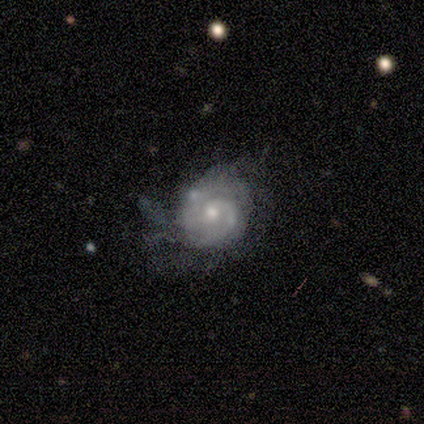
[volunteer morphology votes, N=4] Q: Smooth or featured?
A: featured or disk (100%)
Q: Edge-on disk?
A: no (100%)
Q: Bar?
A: no (100%)
Q: Spiral arms?
A: yes (75%); runner-up: no (25%)
Q: Spiral winding?
A: tight (67%); runner-up: loose (33%)
Q: Spiral arm count?
A: 2 (67%); runner-up: can't tell (33%)
Q: Bulge size?
A: moderate (50%); tied with: small (50%)
Q: Merging?
A: minor disturbance (75%); runner-up: none (25%)